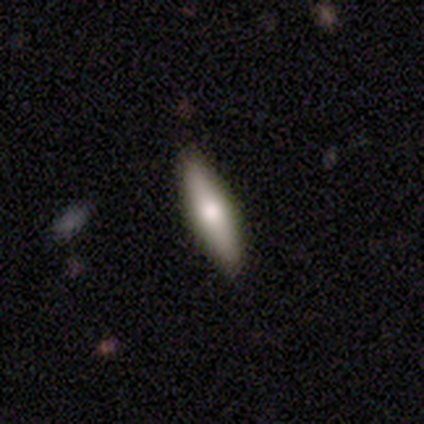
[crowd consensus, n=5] Volunteers were most divided on "how rounded": cigar-shaped: 75%, round: 25%, in between: 0%. More confident: smooth or featured — smooth (80%); merging — none (80%).